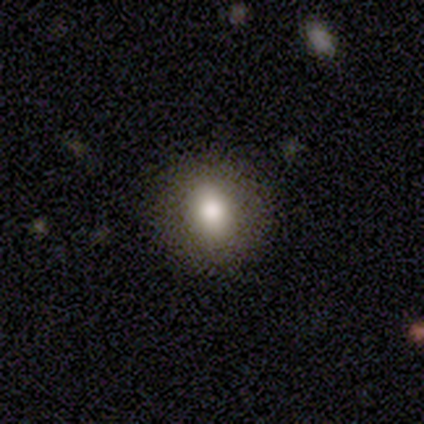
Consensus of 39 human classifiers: Smooth or featured?
  - smooth: 67% *
  - star or artifact: 18%
  - featured or disk: 15%
How rounded?
  - round: 73% *
  - in between: 27%
  - cigar-shaped: 0%
Merging?
  - none: 91% *
  - minor disturbance: 6%
  - major disturbance: 3%
  - merger: 0%